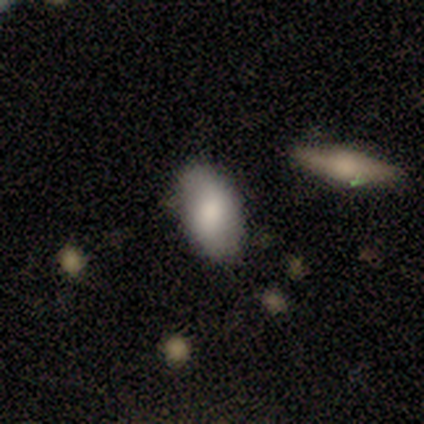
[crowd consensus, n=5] Overall: smooth (60%; featured or disk 20%). How rounded: in between (100%). Merging: none (50%; minor disturbance 25%).